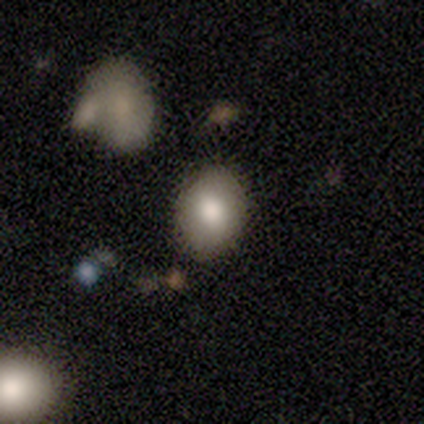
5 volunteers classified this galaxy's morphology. Overall: smooth (100%). How rounded: in between (60%; round 40%). Merging: none (100%).